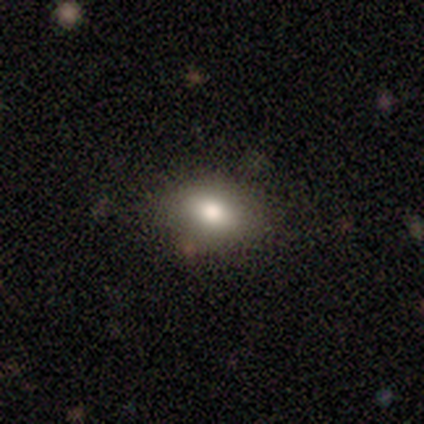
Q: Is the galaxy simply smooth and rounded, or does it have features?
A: smooth — 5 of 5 (100%).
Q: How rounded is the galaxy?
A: in between — 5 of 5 (100%).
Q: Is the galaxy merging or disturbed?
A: none — 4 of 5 (80%).